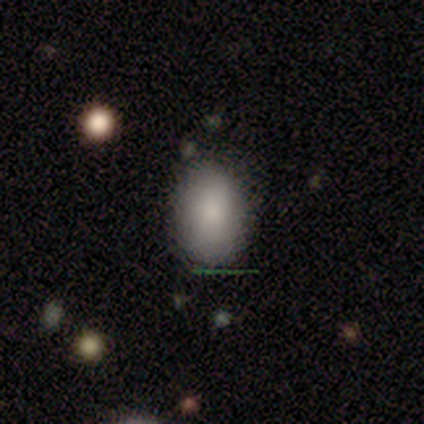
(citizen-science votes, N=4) Smooth or featured? 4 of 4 (100%) said smooth. How rounded? 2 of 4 (50%, tied with in between) said round. Merging? 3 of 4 (75%) said minor disturbance.